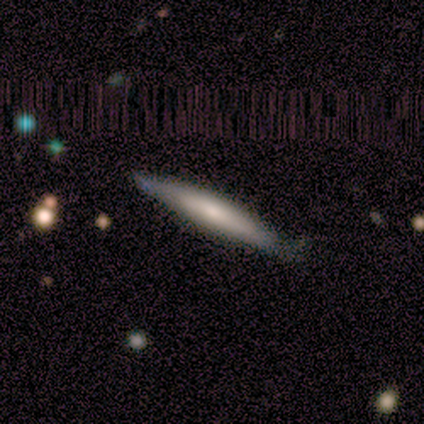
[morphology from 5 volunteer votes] type=smooth (100%); roundness=cigar-shaped (80%); merging=none (60%).